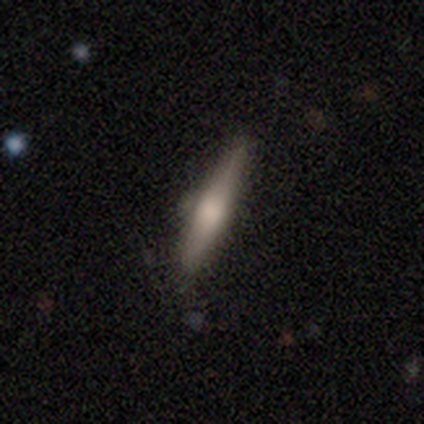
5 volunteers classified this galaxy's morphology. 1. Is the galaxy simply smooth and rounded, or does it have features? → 80% smooth, 20% featured or disk, 0% star or artifact.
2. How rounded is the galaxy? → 75% cigar-shaped, 25% in between, 0% round.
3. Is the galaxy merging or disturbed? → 80% none, 20% minor disturbance, 0% major disturbance, 0% merger.